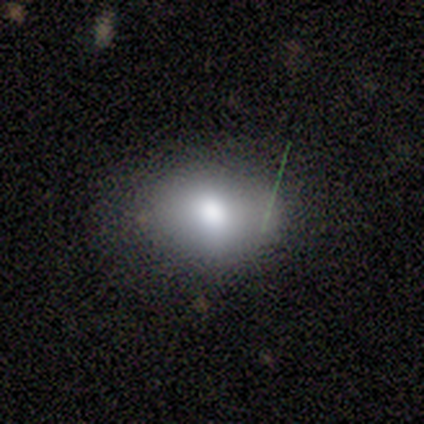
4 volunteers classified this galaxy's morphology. A smooth galaxy with no disk features (100%) that is in between round and cigar-shaped (75%). Merging: none (75%).